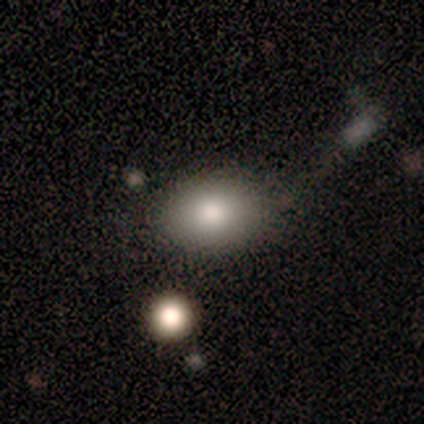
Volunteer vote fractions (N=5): Smooth or featured? smooth (60%)
How rounded? in between (100%)
Merging? merger (50%)